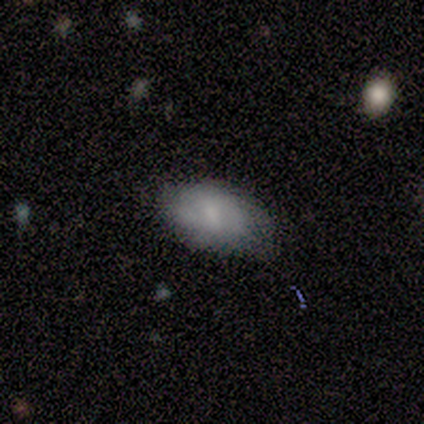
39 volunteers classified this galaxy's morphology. A smooth galaxy with no disk features (72%) that is in between round and cigar-shaped (96%).

Vote fractions:
- Smooth or featured? smooth: 72% / featured or disk: 23% / star or artifact: 5%
- How rounded? in between: 96% / cigar-shaped: 4% / round: 0%
- Merging? none: 49% (tied) / minor disturbance: 49% (tied) / major disturbance: 3% / merger: 0%